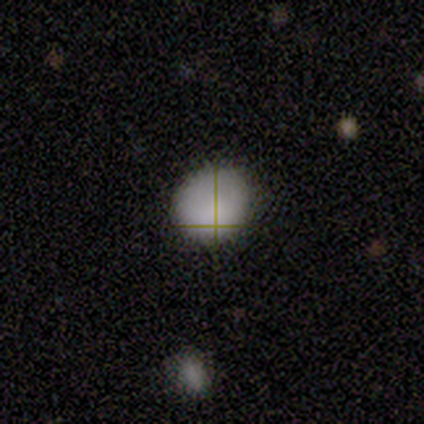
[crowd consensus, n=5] Q: Smooth or featured?
A: smooth (60%); runner-up: featured or disk (20%)
Q: How rounded?
A: round (67%); runner-up: in between (33%)
Q: Merging?
A: none (50%); tied with: minor disturbance (50%)